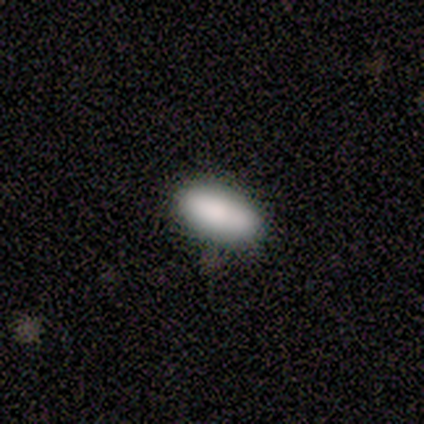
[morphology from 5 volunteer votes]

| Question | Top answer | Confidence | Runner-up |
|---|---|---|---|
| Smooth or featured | smooth | 100% | — |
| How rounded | in between | 80% | cigar-shaped (20%) |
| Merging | none | 80% | minor disturbance (20%) |